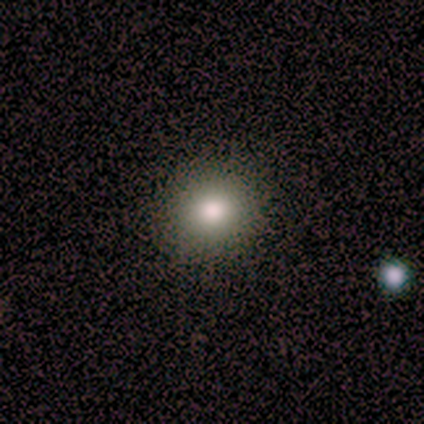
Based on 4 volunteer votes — smooth_or_featured: smooth (p=1.00)
how_rounded: round (p=1.00)
merging: none (p=0.75) [alt: minor disturbance p=0.25]